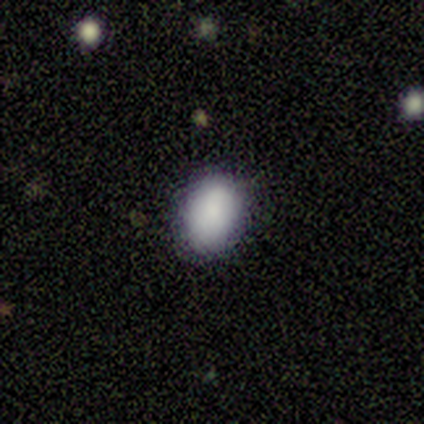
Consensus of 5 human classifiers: smooth 100%, featured or disk 0%, star or artifact 0%. Down the decision tree: how rounded — in between (60%); merging — none (100%).